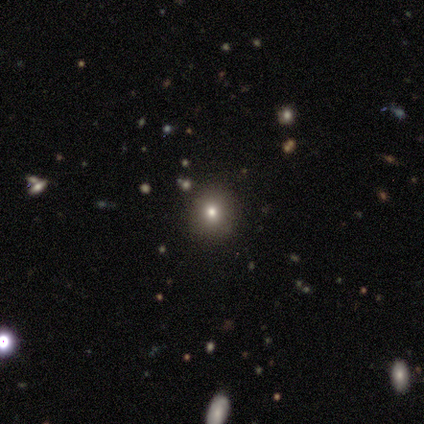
Morphology: type=smooth (75%); roundness=round (100%); merging=none (100%).